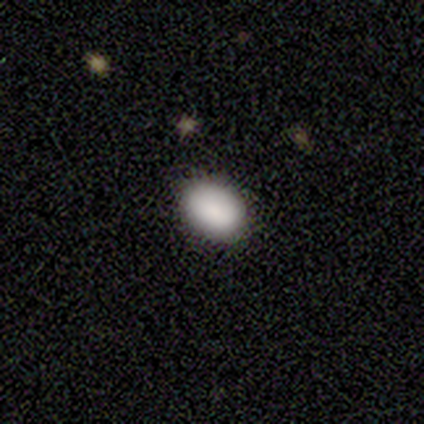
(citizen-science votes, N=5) Morphology: type=smooth (80%); roundness=round (75%); merging=none (100%).